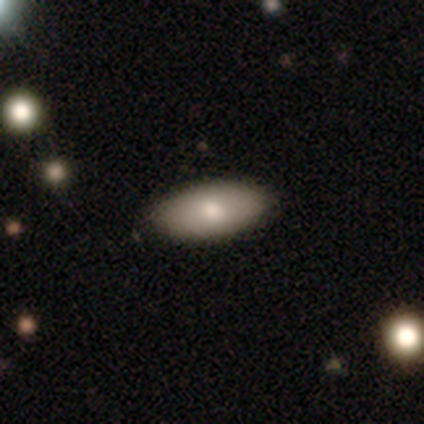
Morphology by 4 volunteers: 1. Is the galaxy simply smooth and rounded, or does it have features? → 100% smooth, 0% featured or disk, 0% star or artifact.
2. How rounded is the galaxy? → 100% in between, 0% round, 0% cigar-shaped.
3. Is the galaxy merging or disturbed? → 100% none, 0% minor disturbance, 0% major disturbance, 0% merger.